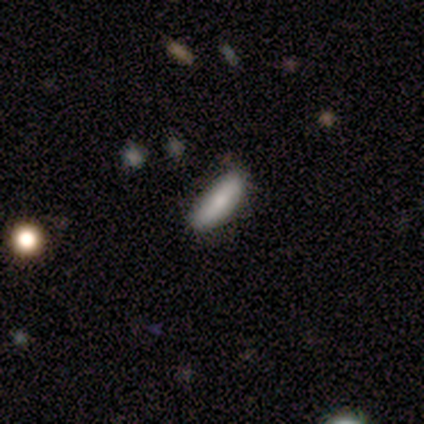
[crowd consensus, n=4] smooth-or-featured: smooth: 100% | featured or disk: 0% | star or artifact: 0%
  how-rounded: cigar-shaped: 100% | round: 0% | in between: 0%
  merging: none: 75% | minor disturbance: 25% | major disturbance: 0% | merger: 0%